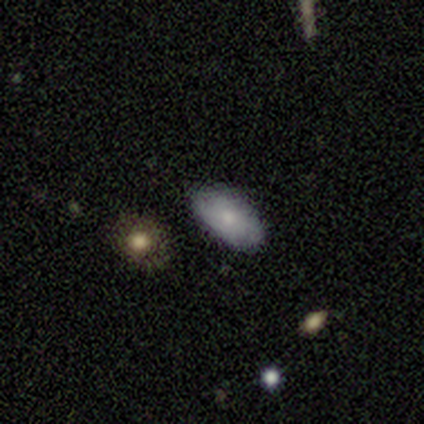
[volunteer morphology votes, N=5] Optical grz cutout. It shows a smooth galaxy with no disk features (100%) that is in between round and cigar-shaped (100%). Merging: none (100%).